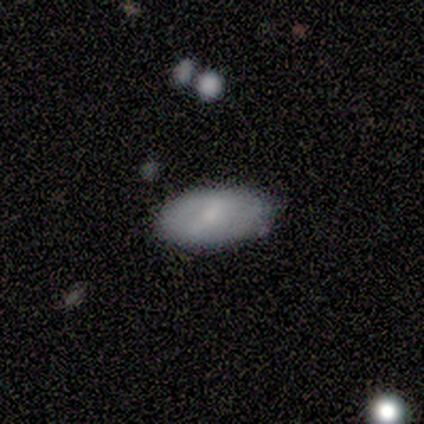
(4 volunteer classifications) Smooth or featured?
  - featured or disk: 75% *
  - smooth: 25%
  - star or artifact: 0%
Edge-on disk?
  - no: 100% *
  - yes: 0%
Bar?
  - weak: 67% *
  - no: 33%
  - strong: 0%
Spiral arms?
  - no: 67% *
  - yes: 33%
Bulge size?
  - small: 67% *
  - moderate: 33%
  - dominant: 0%
  - large: 0%
  - none: 0%
Merging?
  - none: 100% *
  - minor disturbance: 0%
  - major disturbance: 0%
  - merger: 0%